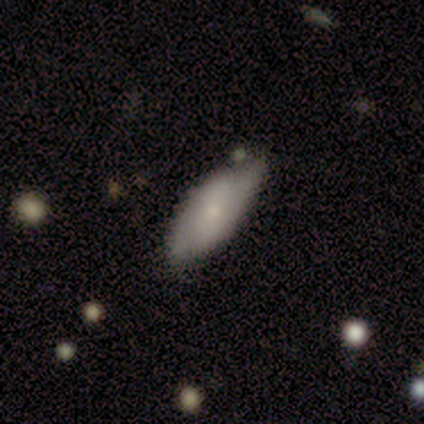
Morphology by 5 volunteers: Smooth or featured: smooth — 80% (featured or disk — 20%)
How rounded: in between — 100%
Merging: none — 60% (minor disturbance — 40%)